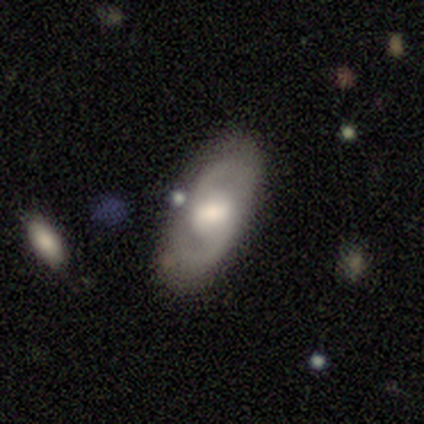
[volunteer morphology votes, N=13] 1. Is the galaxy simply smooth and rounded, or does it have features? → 69% featured or disk, 31% smooth, 0% star or artifact.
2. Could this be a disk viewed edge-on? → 100% no, 0% yes.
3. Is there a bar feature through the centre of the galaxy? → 44% weak (tied), 44% no (tied), 11% strong.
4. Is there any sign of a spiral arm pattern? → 100% yes, 0% no.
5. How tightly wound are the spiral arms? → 67% medium, 22% loose, 11% tight.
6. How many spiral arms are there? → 89% 2, 11% can't tell, 0% 1, 0% 3, 0% 4, 0% more than 4.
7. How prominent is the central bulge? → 56% moderate, 22% large, 22% small, 0% dominant, 0% none.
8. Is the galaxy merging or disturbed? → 77% none, 15% minor disturbance, 8% major disturbance, 0% merger.